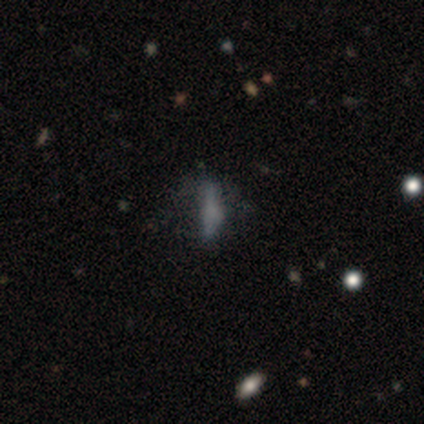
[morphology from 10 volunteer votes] smooth_or_featured: smooth (p=0.60) [alt: featured or disk p=0.30]
how_rounded: in between (p=0.83) [alt: cigar-shaped p=0.17]
merging: none (p=0.78) [alt: minor disturbance p=0.11]